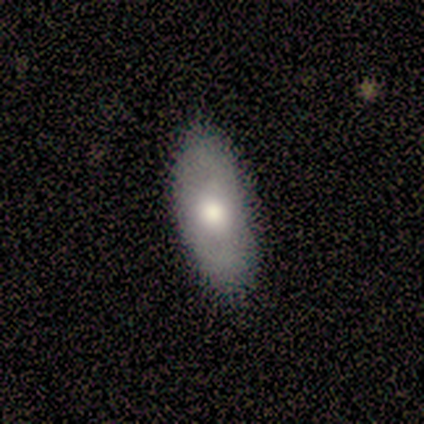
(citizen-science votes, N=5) Overall: smooth (60%; featured or disk 40%). How rounded: in between (100%). Merging: minor disturbance (60%; none 40%).